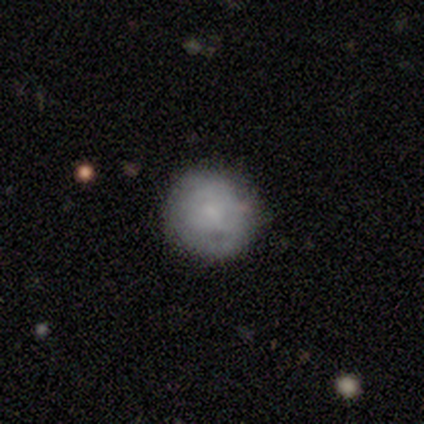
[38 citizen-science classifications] Smooth or featured: smooth — 53% (featured or disk — 34%)
How rounded: round — 100%
Merging: none — 85% (minor disturbance — 9%)